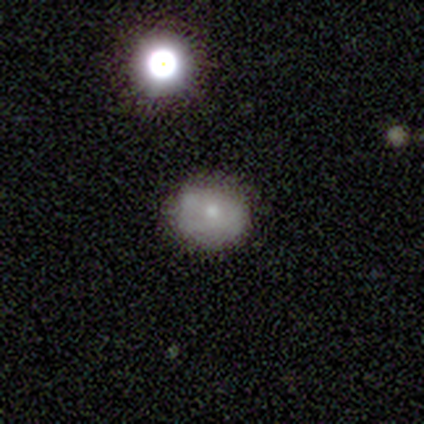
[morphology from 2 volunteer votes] This is clearly a smooth galaxy (100%). How rounded: clearly round (100%). Merging: possibly none (50%, tied with minor disturbance).